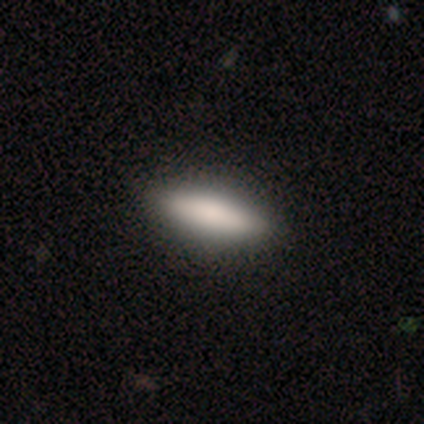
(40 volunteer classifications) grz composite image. It shows a smooth galaxy with no disk features (85%) that is cigar-shaped (65%). Merging: none (74%).